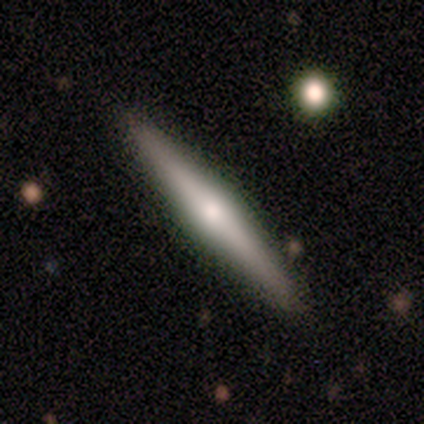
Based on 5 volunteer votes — smooth 60%, featured or disk 40%, star or artifact 0%. Down the decision tree: how rounded — cigar-shaped (67%); merging — none (60%).